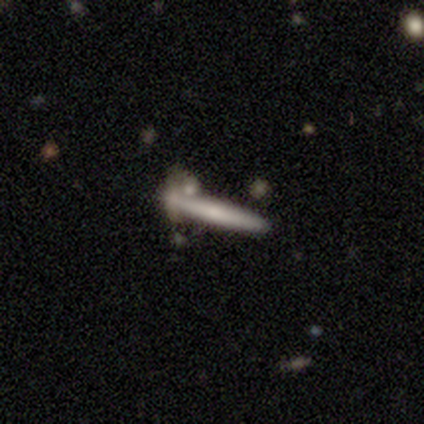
Smooth or featured?
  - featured or disk: 60% *
  - smooth: 20%
  - star or artifact: 20%
Edge-on disk?
  - yes: 100% *
  - no: 0%
Edge-on bulge?
  - boxy: 67% *
  - none: 33%
  - rounded: 0%
Merging?
  - none: 50% *
  - minor disturbance: 25%
  - merger: 25%
  - major disturbance: 0%